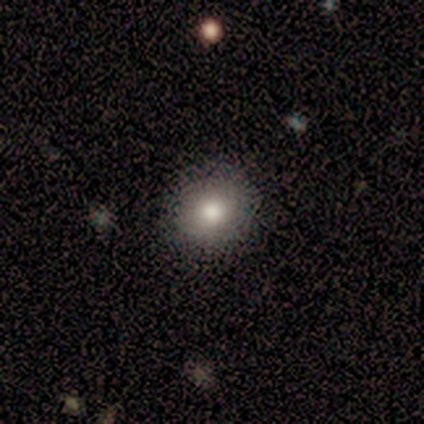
Volunteers were most divided on "merging" (2-way tie): none: 50%, minor disturbance: 50%, major disturbance: 0%, merger: 0%. More confident: how rounded — round (100%); smooth or featured — smooth (75%).